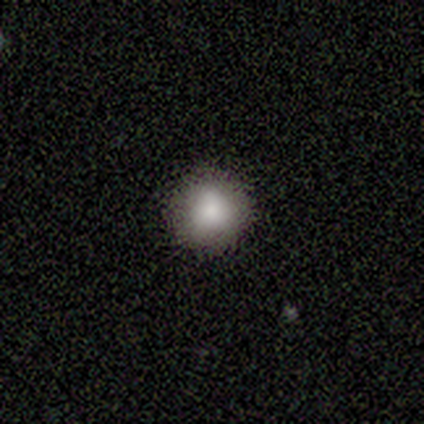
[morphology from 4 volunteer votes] smooth_or_featured: smooth (p=0.75) [alt: featured or disk p=0.25]
how_rounded: round (p=1.00)
merging: none (p=1.00)